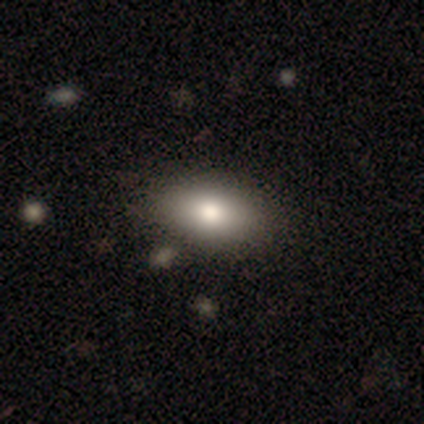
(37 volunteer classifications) Volunteers were most divided on "smooth or featured": smooth: 78%, featured or disk: 16%, star or artifact: 5%. More confident: merging — none (80%); how rounded — in between (79%).